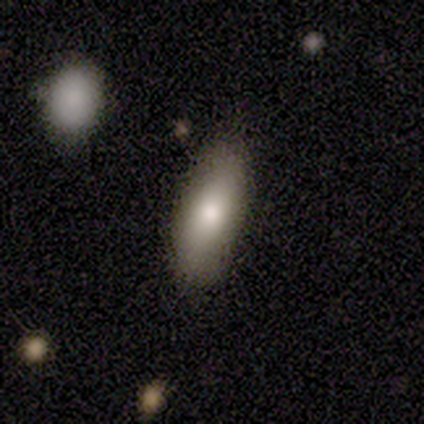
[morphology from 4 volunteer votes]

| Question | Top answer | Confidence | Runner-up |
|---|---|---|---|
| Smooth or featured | smooth | 75% | featured or disk (25%) |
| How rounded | in between | 67% | cigar-shaped (33%) |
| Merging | none | 50% | minor disturbance (25%) |